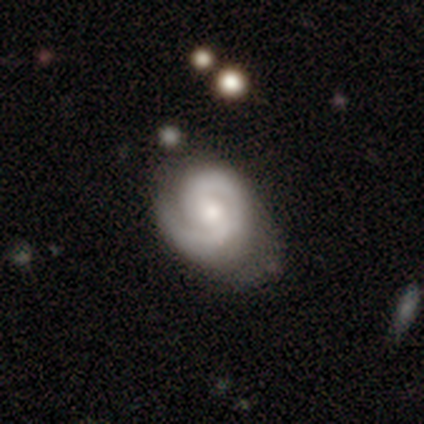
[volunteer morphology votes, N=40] Q: Smooth or featured?
A: featured or disk (88%); runner-up: smooth (10%)
Q: Edge-on disk?
A: no (97%); runner-up: yes (3%)
Q: Bar?
A: weak (53%); runner-up: no (38%)
Q: Spiral arms?
A: yes (97%); runner-up: no (3%)
Q: Spiral winding?
A: tight (61%); runner-up: medium (24%)
Q: Spiral arm count?
A: 2 (73%); runner-up: 1 (21%)
Q: Bulge size?
A: moderate (62%); runner-up: small (24%)
Q: Merging?
A: none (38%); runner-up: minor disturbance (36%)